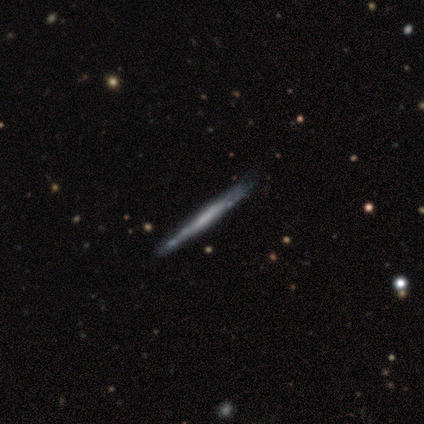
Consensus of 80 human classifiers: Q: Smooth or featured?
A: featured or disk (79%); runner-up: smooth (20%)
Q: Edge-on disk?
A: yes (92%); runner-up: no (8%)
Q: Edge-on bulge?
A: none (90%); runner-up: rounded (7%)
Q: Merging?
A: none (39%); runner-up: minor disturbance (9%)